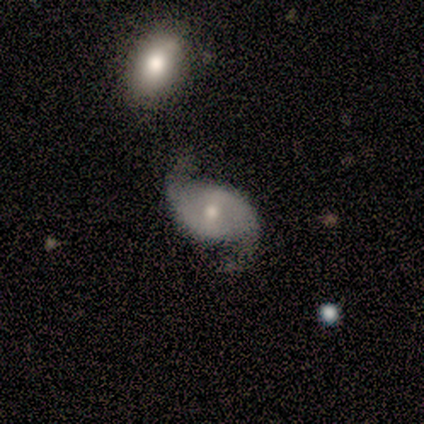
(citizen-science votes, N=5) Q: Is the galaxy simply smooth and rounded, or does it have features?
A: featured or disk — 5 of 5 (100%).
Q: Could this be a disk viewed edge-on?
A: no — 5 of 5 (100%).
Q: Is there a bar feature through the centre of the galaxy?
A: weak — 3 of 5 (60%).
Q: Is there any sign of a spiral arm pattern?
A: yes — 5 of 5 (100%).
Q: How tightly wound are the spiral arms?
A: loose — 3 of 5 (60%).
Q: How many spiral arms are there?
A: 2 — 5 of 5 (100%).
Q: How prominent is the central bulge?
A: moderate — 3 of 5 (60%).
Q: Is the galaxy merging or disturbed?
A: none — 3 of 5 (60%).